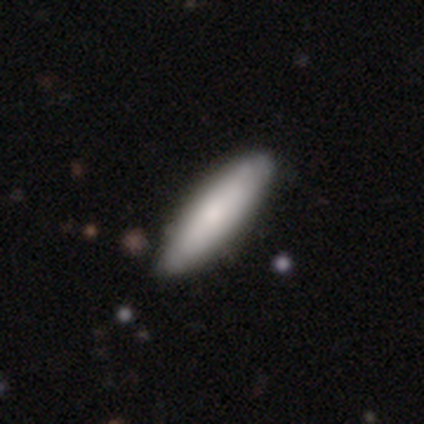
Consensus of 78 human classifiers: smooth_or_featured: smooth (p=0.73) [alt: featured or disk p=0.23]
how_rounded: cigar-shaped (p=0.54) [alt: in between p=0.46]
merging: none (p=0.39) [alt: minor disturbance p=0.08]